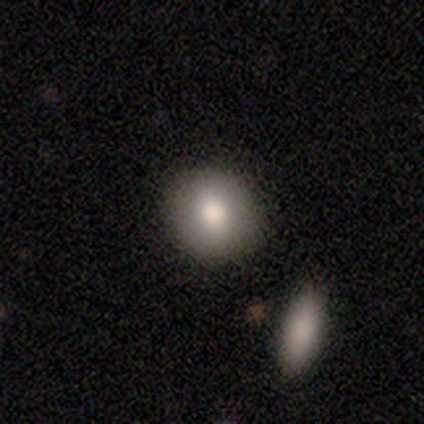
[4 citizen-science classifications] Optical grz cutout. It shows a smooth galaxy with no disk features (75%) that is round (100%). Merging: none (100%).